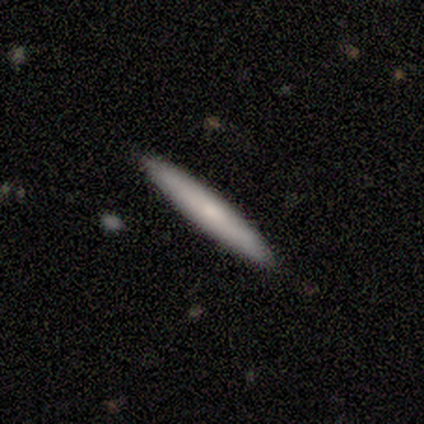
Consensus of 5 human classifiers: smooth 80%, featured or disk 20%, star or artifact 0%. Down the decision tree: how rounded — cigar-shaped (100%); merging — none (100%).